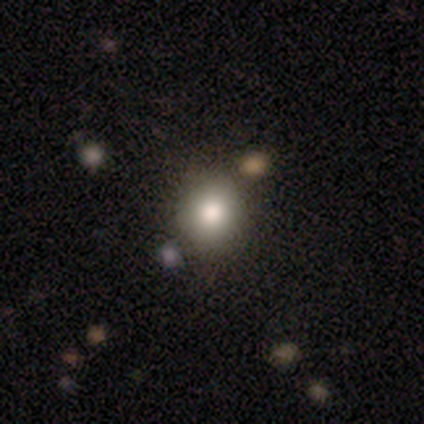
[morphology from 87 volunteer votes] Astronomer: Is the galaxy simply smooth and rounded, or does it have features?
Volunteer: smooth — 71%.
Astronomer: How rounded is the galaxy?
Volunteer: round — 79%.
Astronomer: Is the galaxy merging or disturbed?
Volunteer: none — 90%.